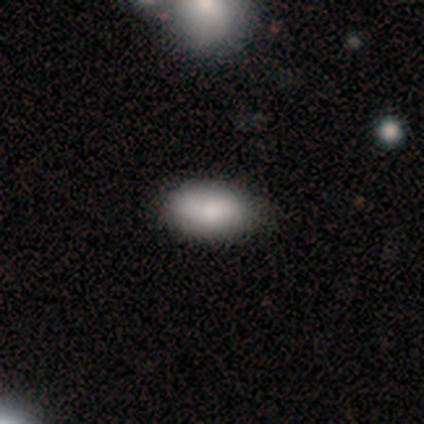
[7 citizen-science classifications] This appears to be a smooth galaxy with no disk features (100%) that is in between round and cigar-shaped (100%). Merging: none (86%).